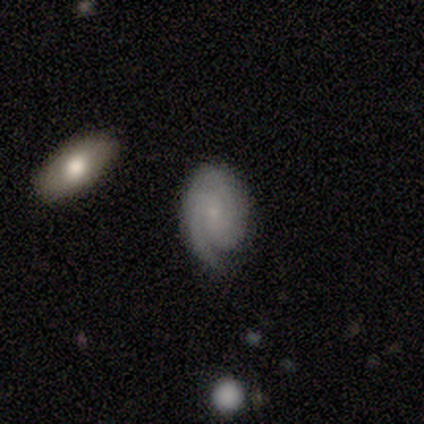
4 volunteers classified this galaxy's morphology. A featured or disk galaxy (75%) with no bar (100%), 1 (50%, tied with can't tell) tight (100%) spiral arms (67%) and a small central bulge (100%). Merging: none (67%).